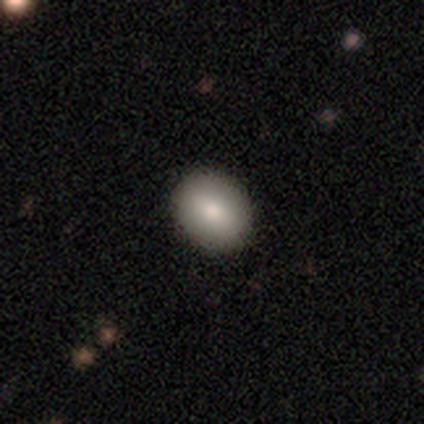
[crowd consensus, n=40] Smooth or featured?
  - smooth: 85% *
  - featured or disk: 8%
  - star or artifact: 8%
How rounded?
  - in between: 62% *
  - round: 38%
  - cigar-shaped: 0%
Merging?
  - none: 95% *
  - minor disturbance: 3%
  - merger: 3%
  - major disturbance: 0%